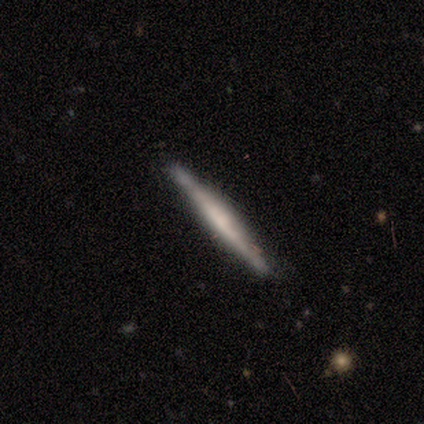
smooth-or-featured: featured or disk: 60% | smooth: 40% | star or artifact: 0%
  disk-edge-on: yes: 100% | no: 0%
    edge-on-bulge: boxy: 67% | none: 33% | rounded: 0%
  merging: none: 60% | minor disturbance: 20% | major disturbance: 20% | merger: 0%